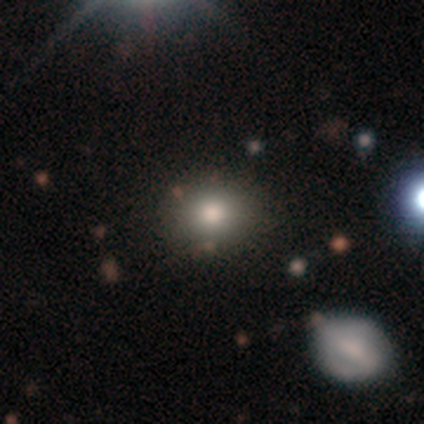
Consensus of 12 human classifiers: Overall: smooth (92%). How rounded: round (55%; in between 45%). Merging: none (91%).